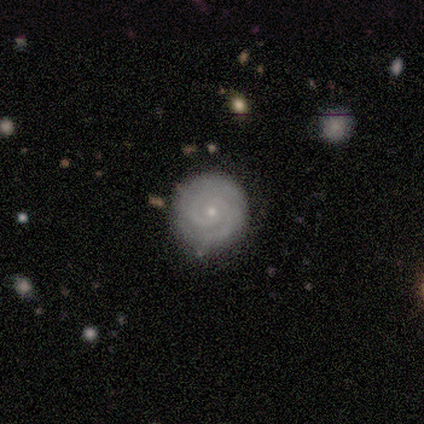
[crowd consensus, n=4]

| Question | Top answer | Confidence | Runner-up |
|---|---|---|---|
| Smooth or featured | featured or disk | 75% | smooth (25%) |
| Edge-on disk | no | 100% | — |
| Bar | no | 67% | weak (33%) |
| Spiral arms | yes | 100% | — |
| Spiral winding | tight | 100% | — |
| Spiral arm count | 2 | 67% | 4 (33%) |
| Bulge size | small | 100% | — |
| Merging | none | 75% | minor disturbance (25%) |